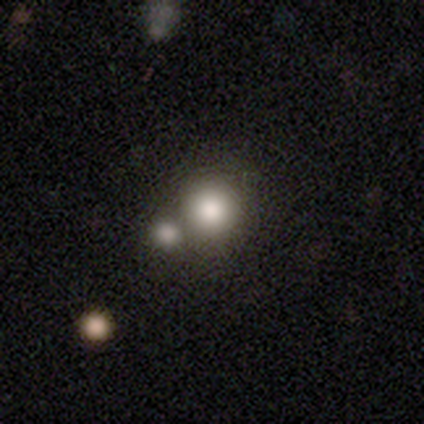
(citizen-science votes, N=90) This appears to be a smooth galaxy with no disk features (73%) that is round (92%). Merging: none (59%).